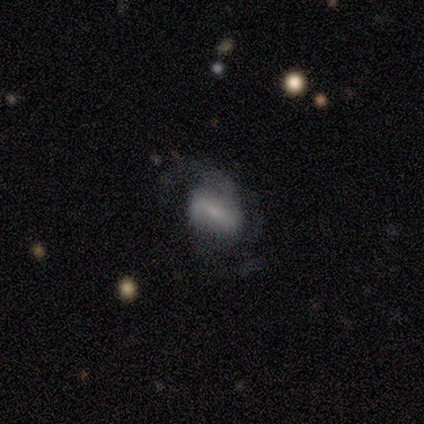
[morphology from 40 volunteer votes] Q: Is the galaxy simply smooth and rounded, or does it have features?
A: featured or disk — 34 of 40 (85%).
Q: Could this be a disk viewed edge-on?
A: no — 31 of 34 (91%).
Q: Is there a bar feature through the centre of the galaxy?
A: weak — 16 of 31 (52%).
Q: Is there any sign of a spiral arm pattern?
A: yes — 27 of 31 (87%).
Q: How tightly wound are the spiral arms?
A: medium — 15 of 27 (56%).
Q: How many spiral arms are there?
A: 2 — 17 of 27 (63%).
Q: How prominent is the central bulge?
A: small — 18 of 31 (58%).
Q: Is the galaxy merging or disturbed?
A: none — 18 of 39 (46%).